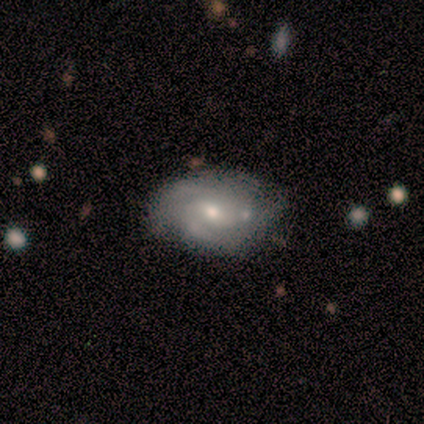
Morphology: type=featured or disk (100%); edge-on=no (100%); bar=weak (71%); spiral arms=yes (86%); winding=medium (67%); arm count=3 (33%, tied with can't tell); bulge=small (57%); merging=none (71%).